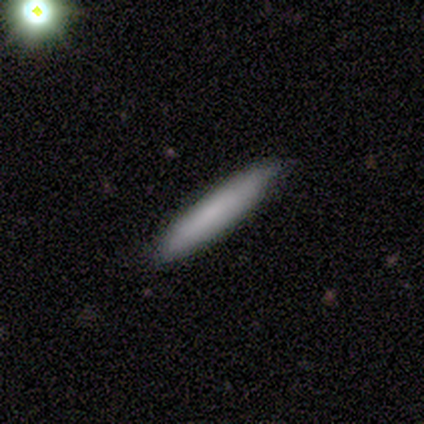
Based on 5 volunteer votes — Morphology: type=smooth (60%); roundness=cigar-shaped (100%); merging=none (100%).